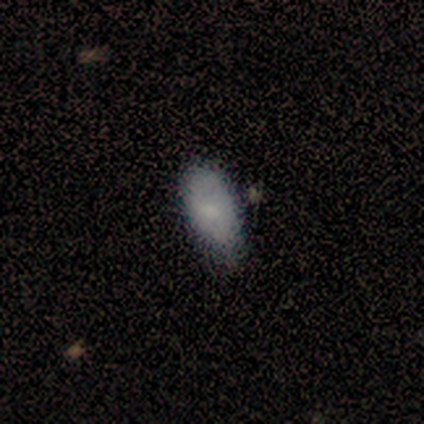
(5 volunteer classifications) smooth-or-featured: smooth: 80% | featured or disk: 20% | star or artifact: 0%
  how-rounded: in between: 100% | round: 0% | cigar-shaped: 0%
  merging: none: 100% | minor disturbance: 0% | major disturbance: 0% | merger: 0%